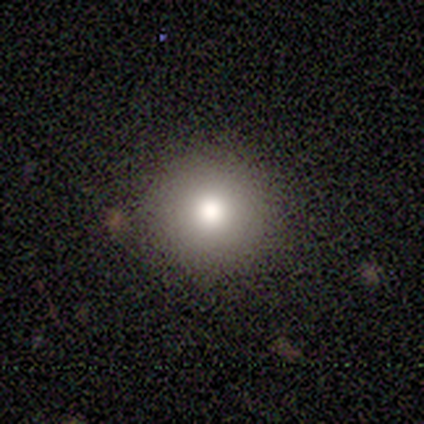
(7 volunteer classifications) A smooth galaxy with no disk features (86%) that is round (100%).

Vote fractions:
- Smooth or featured? smooth: 86% / featured or disk: 14% / star or artifact: 0%
- How rounded? round: 100% / in between: 0% / cigar-shaped: 0%
- Merging? none: 86% / merger: 14% / minor disturbance: 0% / major disturbance: 0%